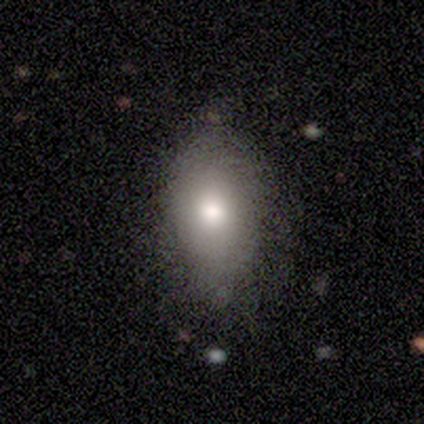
This is clearly a smooth galaxy (80%). How rounded: likely in between (79%). Merging: likely none (64%).